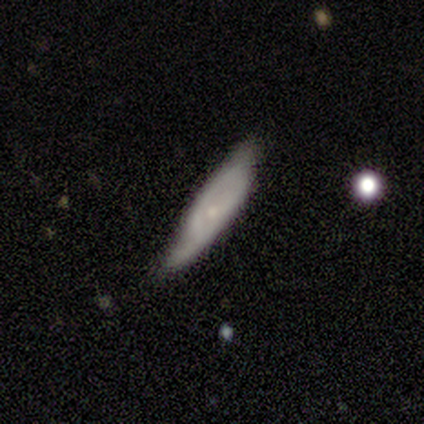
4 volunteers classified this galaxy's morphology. Smooth or featured? smooth (50%)
How rounded? cigar-shaped (100%)
Merging? none (67%)